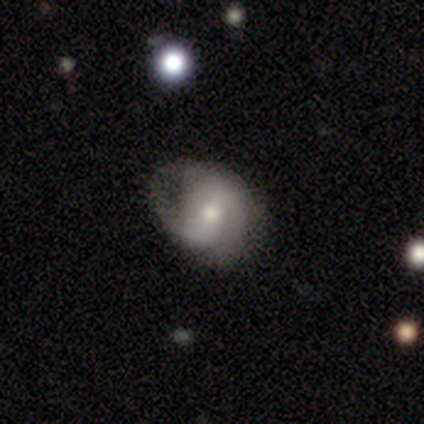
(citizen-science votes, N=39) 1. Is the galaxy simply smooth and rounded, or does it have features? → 62% featured or disk, 31% smooth, 8% star or artifact.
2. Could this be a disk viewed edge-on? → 96% no, 4% yes.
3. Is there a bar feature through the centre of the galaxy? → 43% no, 39% weak, 17% strong.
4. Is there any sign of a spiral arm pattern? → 87% yes, 13% no.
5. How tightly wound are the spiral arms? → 45% medium, 35% tight, 20% loose.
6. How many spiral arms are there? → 70% 2, 15% 1, 10% 3, 5% can't tell, 0% 4, 0% more than 4.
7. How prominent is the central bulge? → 65% moderate, 26% small, 9% large, 0% dominant, 0% none.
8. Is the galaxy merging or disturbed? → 47% none, 28% major disturbance, 25% minor disturbance, 0% merger.